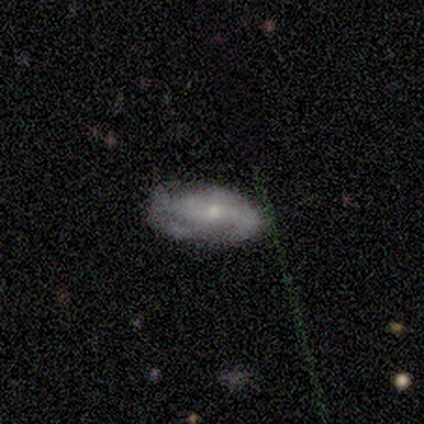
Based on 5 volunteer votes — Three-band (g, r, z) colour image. It shows a featured or disk galaxy (60%) with a weak bar (50%, tied with no), 3 (100%) medium (100%) spiral arms (50%, tied with no) and a moderate central bulge (50%, tied with small). Merging: none (60%).